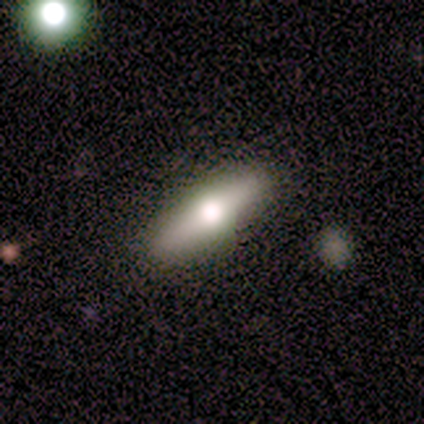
A smooth galaxy with no disk features (60%) that is cigar-shaped (100%).

Vote fractions:
- Smooth or featured? smooth: 60% / featured or disk: 20% / star or artifact: 20%
- How rounded? cigar-shaped: 100% / round: 0% / in between: 0%
- Merging? none: 100% / minor disturbance: 0% / major disturbance: 0% / merger: 0%